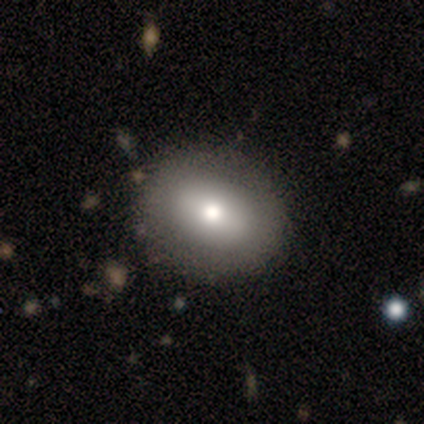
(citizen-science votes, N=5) smooth_or_featured: smooth (p=0.80) [alt: featured or disk p=0.20]
how_rounded: round (p=0.75) [alt: in between p=0.25]
merging: none (p=1.00)